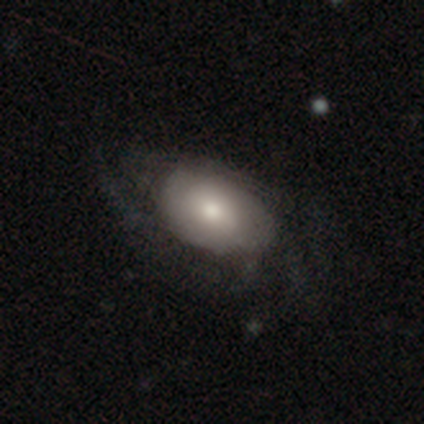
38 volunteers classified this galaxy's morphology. Q: Smooth or featured?
A: featured or disk (68%); runner-up: smooth (24%)
Q: Edge-on disk?
A: no (88%); runner-up: yes (12%)
Q: Bar?
A: no (70%); runner-up: weak (17%)
Q: Spiral arms?
A: yes (65%); runner-up: no (35%)
Q: Spiral winding?
A: loose (40%); runner-up: medium (33%)
Q: Spiral arm count?
A: can't tell (53%); runner-up: more than 4 (20%)
Q: Bulge size?
A: moderate (52%); runner-up: large (35%)
Q: Merging?
A: none (46%); runner-up: minor disturbance (34%)